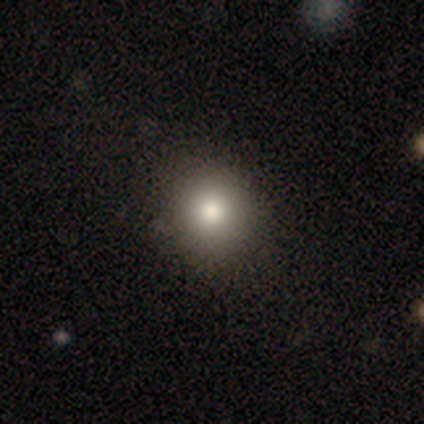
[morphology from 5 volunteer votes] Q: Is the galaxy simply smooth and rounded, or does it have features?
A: smooth — 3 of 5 (60%).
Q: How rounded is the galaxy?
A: round — 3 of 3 (100%).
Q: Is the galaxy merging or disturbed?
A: none — 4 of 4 (100%).